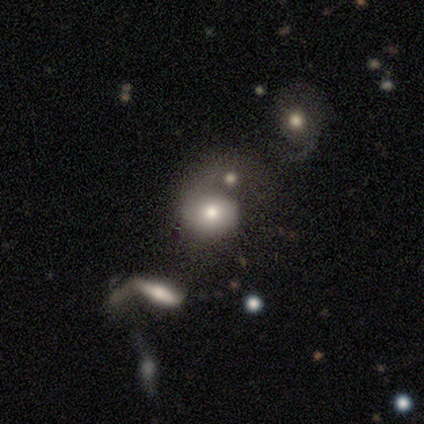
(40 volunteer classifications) Overall: smooth (52%; featured or disk 28%). How rounded: round (81%). Merging: none (34%; major disturbance 31%).